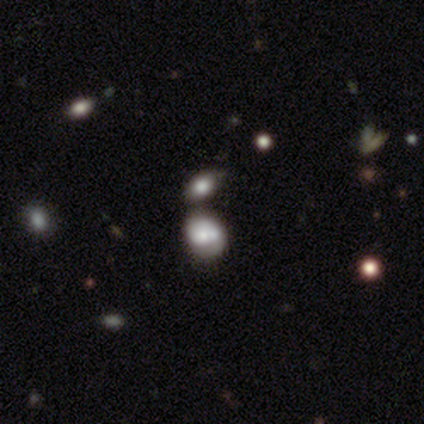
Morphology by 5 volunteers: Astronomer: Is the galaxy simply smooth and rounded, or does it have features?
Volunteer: smooth — 40%, tied with star or artifact at 40%.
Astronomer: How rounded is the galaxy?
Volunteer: round — 50%, tied with in between at 50%.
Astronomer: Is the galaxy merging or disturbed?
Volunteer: none — 67%.